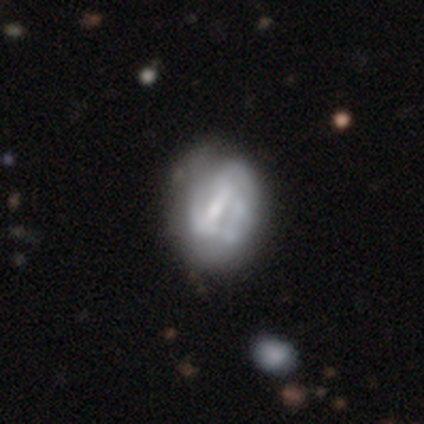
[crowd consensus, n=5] A featured or disk galaxy (80%) with a strong bar (50%, tied with weak), 2 (50%, tied with can't tell) tight (50%, tied with medium) spiral arms (100%) and a moderate central bulge (75%).

Vote fractions:
- Smooth or featured? featured or disk: 80% / star or artifact: 20% / smooth: 0%
- Edge-on disk? no: 100% / yes: 0%
- Bar? strong: 50% (tied) / weak: 50% (tied) / no: 0%
- Spiral arms? yes: 100% / no: 0%
- Spiral winding? tight: 50% (tied) / medium: 50% (tied) / loose: 0%
- Spiral arm count? 2: 50% (tied) / can't tell: 50% (tied) / 1: 0% / 3: 0% / 4: 0% / more than 4: 0%
- Bulge size? moderate: 75% / small: 25% / dominant: 0% / large: 0% / none: 0%
- Merging? none: 75% / minor disturbance: 25% / major disturbance: 0% / merger: 0%